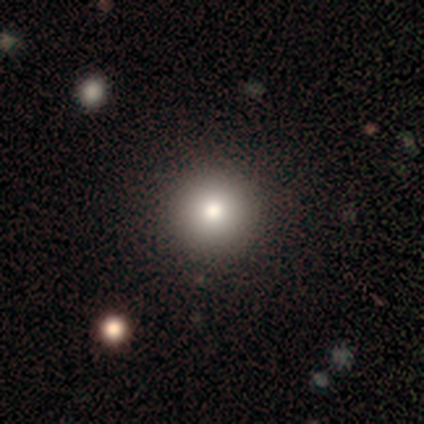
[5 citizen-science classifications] A smooth galaxy with no disk features (100%) that is round (100%).

Vote fractions:
- Smooth or featured? smooth: 100% / featured or disk: 0% / star or artifact: 0%
- How rounded? round: 100% / in between: 0% / cigar-shaped: 0%
- Merging? none: 100% / minor disturbance: 0% / major disturbance: 0% / merger: 0%